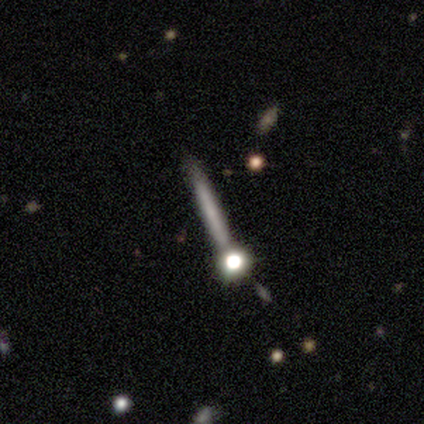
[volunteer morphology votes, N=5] smooth-or-featured: smooth: 40% (tied) | featured or disk: 40% (tied) | star or artifact: 20%
  how-rounded: round: 50% (tied) | cigar-shaped: 50% (tied) | in between: 0%
  merging: none: 50% | minor disturbance: 25% | merger: 25% | major disturbance: 0%